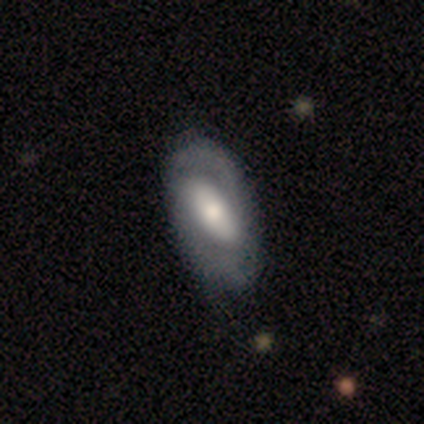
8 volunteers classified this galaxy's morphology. Smooth or featured?
  - featured or disk: 88% *
  - smooth: 12%
  - star or artifact: 0%
Edge-on disk?
  - no: 100% *
  - yes: 0%
Bar?
  - strong: 71% *
  - weak: 14%
  - no: 14%
Spiral arms?
  - yes: 71% *
  - no: 29%
Spiral winding?
  - tight: 60% *
  - medium: 20%
  - loose: 20%
Spiral arm count?
  - 2: 80% *
  - can't tell: 20%
  - 1: 0%
  - 3: 0%
  - 4: 0%
  - more than 4: 0%
Bulge size?
  - moderate: 71% *
  - dominant: 14%
  - small: 14%
  - large: 0%
  - none: 0%
Merging?
  - none: 100% *
  - minor disturbance: 0%
  - major disturbance: 0%
  - merger: 0%